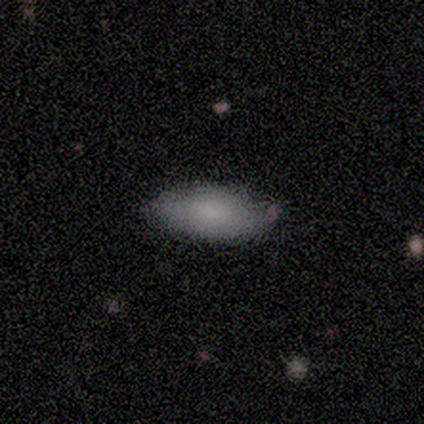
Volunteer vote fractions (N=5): This appears to be a smooth galaxy with no disk features (80%) that is in between round and cigar-shaped (100%). Merging: none (100%).